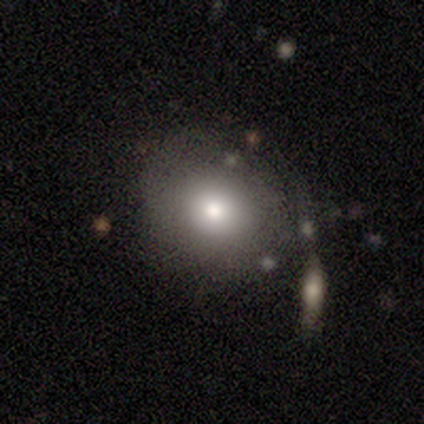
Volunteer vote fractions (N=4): smooth_or_featured: smooth (p=1.00)
how_rounded: round (p=0.75) [alt: in between p=0.25]
merging: minor disturbance (p=0.50) [tied with: major disturbance p=0.50]